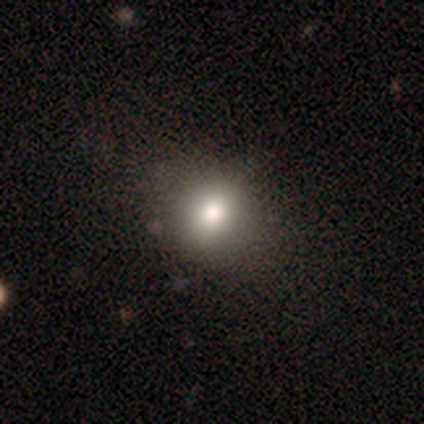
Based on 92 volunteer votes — A smooth galaxy with no disk features (67%) that is round (73%).

Vote fractions:
- Smooth or featured? smooth: 67% / star or artifact: 23% / featured or disk: 10%
- How rounded? round: 73% / in between: 27% / cigar-shaped: 0%
- Merging? none: 83% / minor disturbance: 13% / major disturbance: 4% / merger: 0%